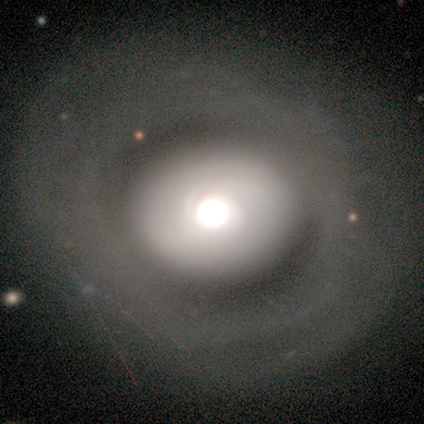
Overall: featured or disk (80%). Edge-on disk: no (100%). Bar: no (100%). Spiral arms: no (100%). Bulge size: moderate (50%; dominant 25%). Merging: none (80%).